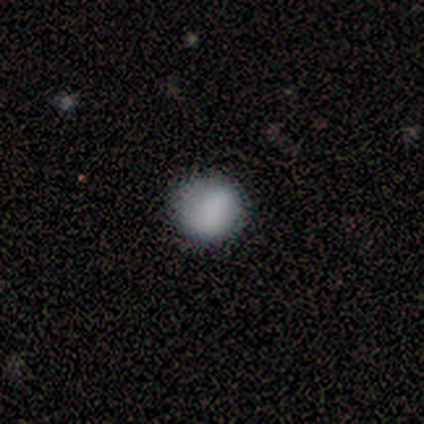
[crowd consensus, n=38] Smooth or featured? smooth (87%)
How rounded? round (91%)
Merging? none (54%)